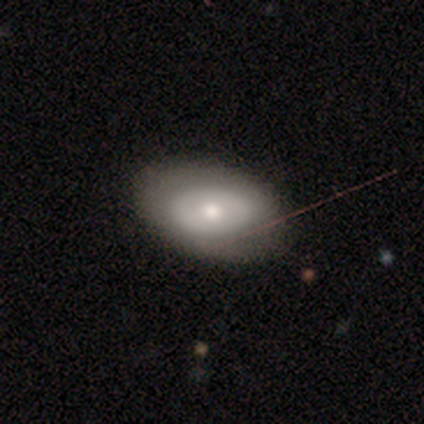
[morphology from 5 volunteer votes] A smooth galaxy with no disk features (60%) that is in between round and cigar-shaped (100%). Merging: none (80%).